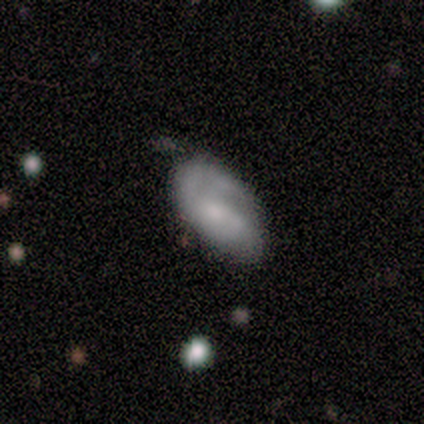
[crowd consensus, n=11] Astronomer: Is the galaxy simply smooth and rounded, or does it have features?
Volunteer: featured or disk — 64%.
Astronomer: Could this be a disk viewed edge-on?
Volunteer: no — 100%.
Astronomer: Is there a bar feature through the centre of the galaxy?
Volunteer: no — 71%.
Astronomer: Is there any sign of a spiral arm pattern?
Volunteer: yes — 57% (runner-up: no, 43%).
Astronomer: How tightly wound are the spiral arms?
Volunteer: medium — 100%.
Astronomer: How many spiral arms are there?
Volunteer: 1 — 50%.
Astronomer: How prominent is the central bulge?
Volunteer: moderate — 43%, tied with small at 43%.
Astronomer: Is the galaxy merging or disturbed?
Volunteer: none — 55%.